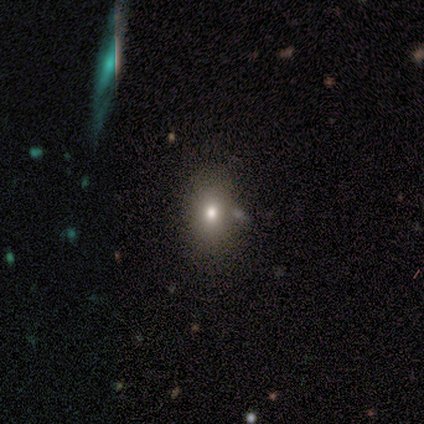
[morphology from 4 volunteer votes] type=smooth (100%); roundness=in between (75%); merging=none (75%).